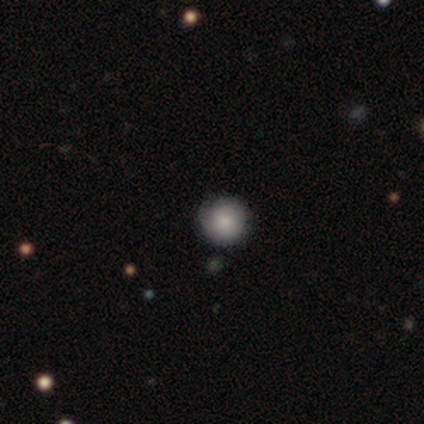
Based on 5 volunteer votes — Morphology: type=smooth (100%); roundness=round (100%); merging=none (100%).